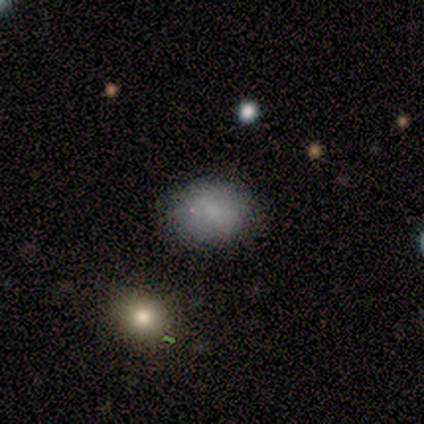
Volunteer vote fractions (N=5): Smooth or featured: smooth — 100%
How rounded: in between — 60% (round — 40%)
Merging: none — 100%